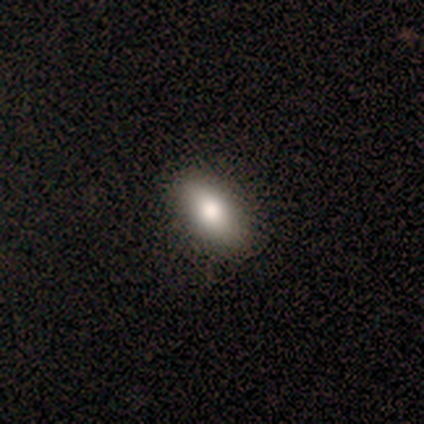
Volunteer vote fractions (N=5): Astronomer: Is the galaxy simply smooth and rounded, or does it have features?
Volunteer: smooth — 80%.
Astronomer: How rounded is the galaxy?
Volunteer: in between — 100%.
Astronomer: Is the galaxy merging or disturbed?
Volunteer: none — 80%.